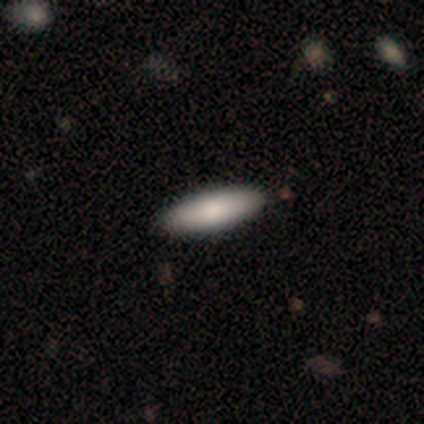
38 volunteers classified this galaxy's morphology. This is likely a smooth galaxy (76%). How rounded: likely in between (66%). Merging: clearly none (97%).